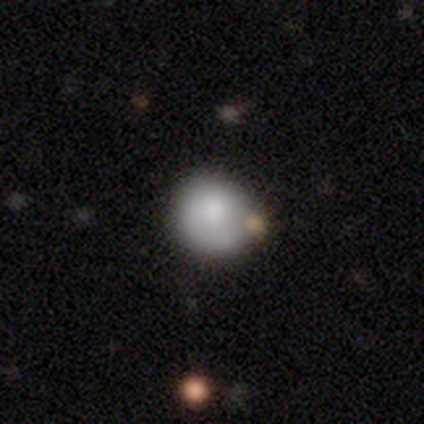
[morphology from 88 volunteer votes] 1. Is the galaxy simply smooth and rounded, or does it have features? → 83% smooth, 12% featured or disk, 5% star or artifact.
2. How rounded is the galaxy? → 86% round, 14% in between, 0% cigar-shaped.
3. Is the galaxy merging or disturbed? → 69% none, 20% minor disturbance, 7% merger, 4% major disturbance.